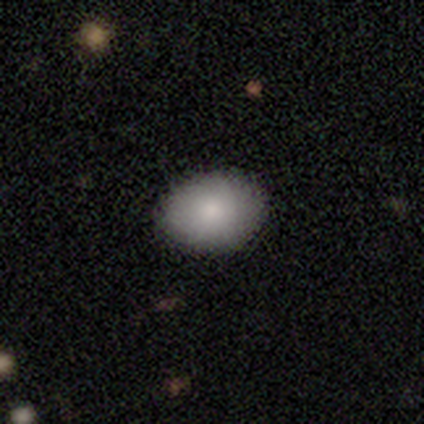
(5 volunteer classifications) smooth-or-featured: smooth: 100% | featured or disk: 0% | star or artifact: 0%
  how-rounded: in between: 60% | round: 40% | cigar-shaped: 0%
  merging: none: 80% | minor disturbance: 20% | major disturbance: 0% | merger: 0%